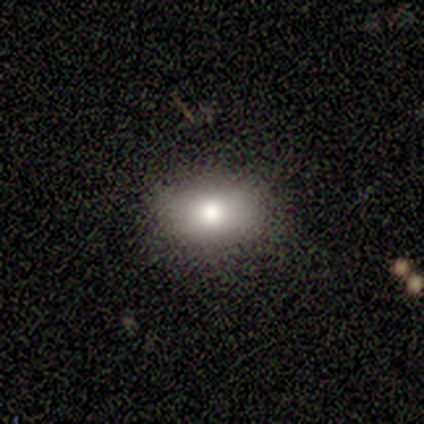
Q: Smooth or featured?
A: smooth (71%); runner-up: featured or disk (29%)
Q: How rounded?
A: in between (80%); runner-up: round (20%)
Q: Merging?
A: none (86%); runner-up: minor disturbance (14%)